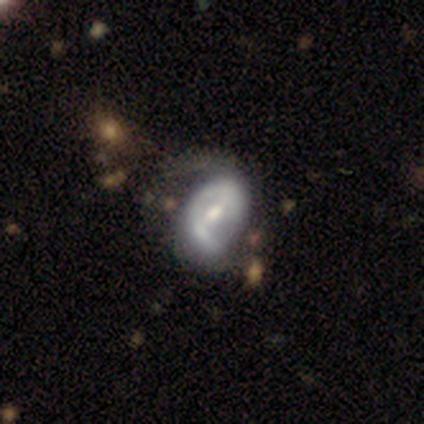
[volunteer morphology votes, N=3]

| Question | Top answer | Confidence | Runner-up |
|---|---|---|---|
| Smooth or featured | featured or disk | 100% | — |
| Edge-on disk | no | 100% | — |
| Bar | weak | 100% | — |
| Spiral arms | yes | 100% | — |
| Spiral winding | tight | 67% | medium (33%) |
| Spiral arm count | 2 | 67% | 1 (33%) |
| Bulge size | moderate | 67% | none (33%) |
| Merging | none | 67% | major disturbance (33%) |